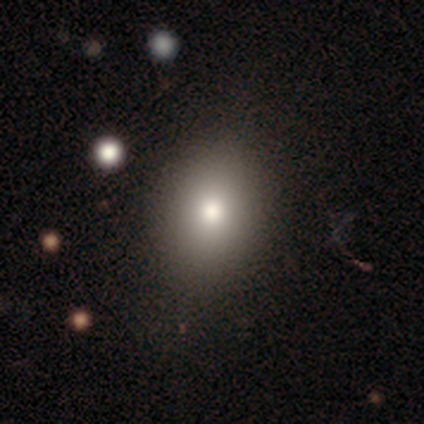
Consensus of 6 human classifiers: Q: Smooth or featured?
A: smooth (83%); runner-up: featured or disk (17%)
Q: How rounded?
A: in between (100%)
Q: Merging?
A: none (67%); runner-up: minor disturbance (17%)